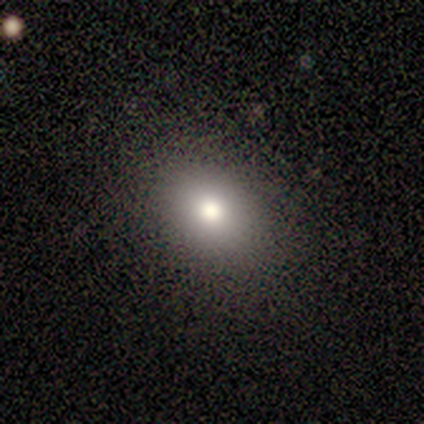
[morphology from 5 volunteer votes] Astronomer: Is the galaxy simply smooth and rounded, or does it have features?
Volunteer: smooth — 80%.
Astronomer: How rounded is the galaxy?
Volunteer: in between — 75%.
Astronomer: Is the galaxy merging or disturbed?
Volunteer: none — 80%.